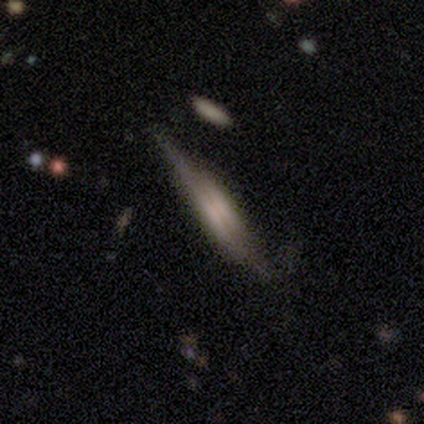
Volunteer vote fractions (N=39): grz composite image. It shows a featured or disk galaxy (72%) viewed edge-on (96%) with a boxy central bulge (63%). Merging: none (66%).